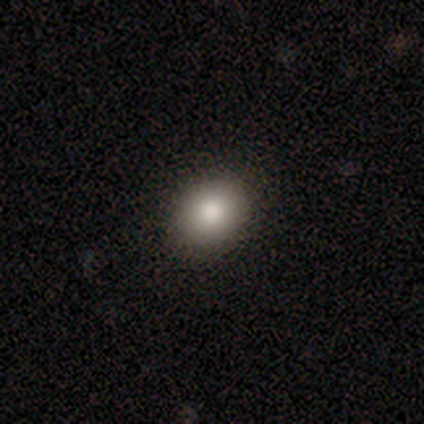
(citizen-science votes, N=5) smooth_or_featured: smooth (p=0.80) [alt: star or artifact p=0.20]
how_rounded: round (p=0.50) [tied with: in between p=0.50]
merging: none (p=1.00)